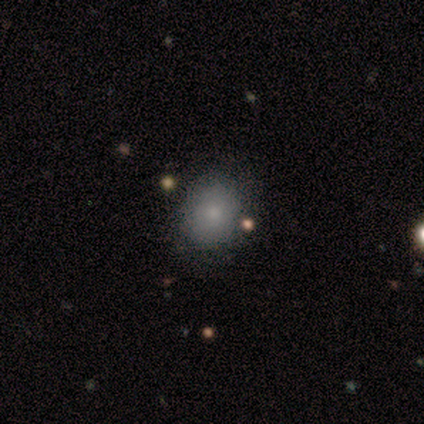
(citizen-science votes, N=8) Smooth or featured? star or artifact (50%)